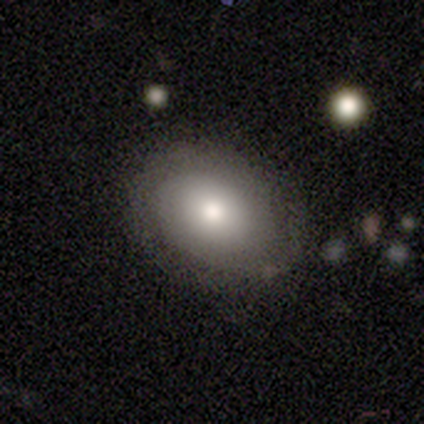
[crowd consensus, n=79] smooth-or-featured: smooth: 63% | featured or disk: 34% | star or artifact: 3%
  how-rounded: in between: 58% | round: 42% | cigar-shaped: 0%
  merging: none: 79% | minor disturbance: 17% | major disturbance: 4% | merger: 0%